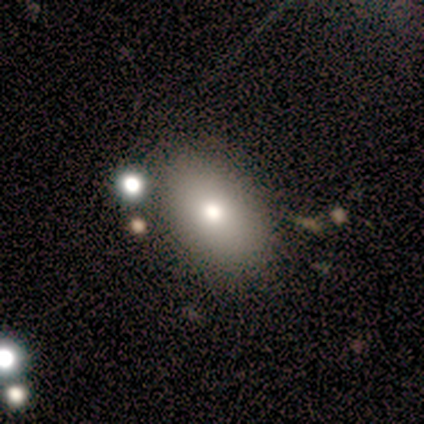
smooth_or_featured: smooth (p=1.00)
how_rounded: in between (p=0.75) [alt: round p=0.25]
merging: none (p=0.50) [alt: major disturbance p=0.25]